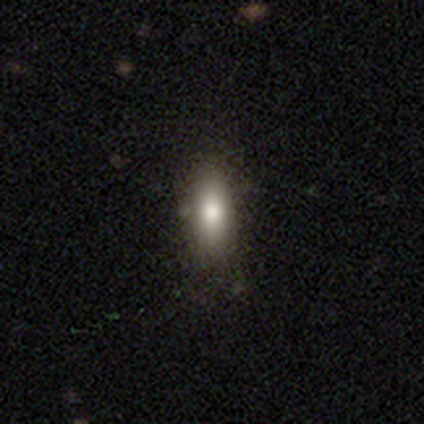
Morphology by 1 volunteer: smooth 100%, featured or disk 0%, star or artifact 0%. Down the decision tree: how rounded — in between (100%); merging — none (100%).